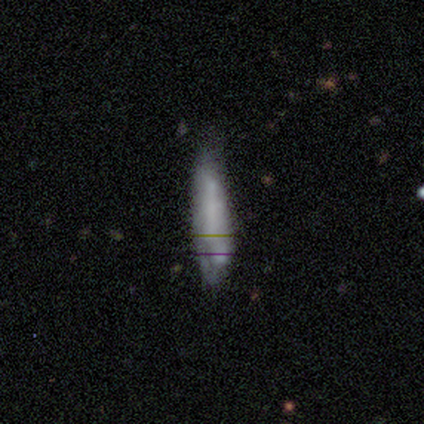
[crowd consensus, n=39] Overall: smooth (59%; featured or disk 38%). How rounded: cigar-shaped (87%). Merging: none (66%).